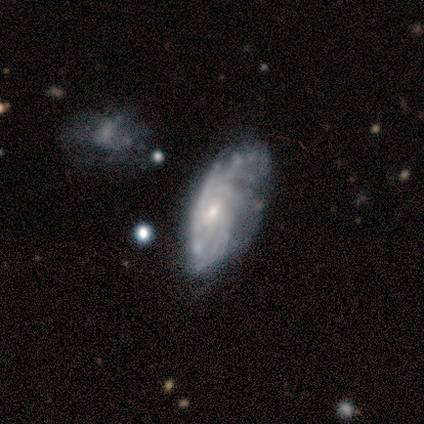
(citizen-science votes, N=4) Volunteers were most divided on "merging": none: 50%, minor disturbance: 25%, major disturbance: 25%, merger: 0%. More confident: edge-on disk — no (100%); spiral arms — yes (100%); bulge size — small (100%); smooth or featured — featured or disk (75%); bar — no (67%); spiral winding — tight (67%); spiral arm count — can't tell (67%).